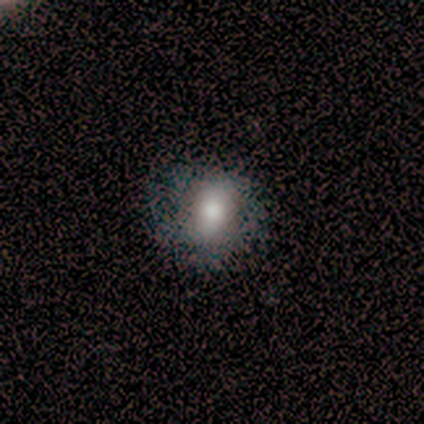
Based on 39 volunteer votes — Smooth or featured: smooth — 64% (featured or disk — 26%)
How rounded: round — 52% (in between — 48%)
Merging: none — 57% (minor disturbance — 17%)